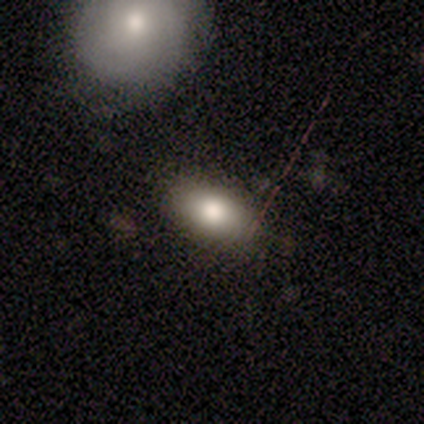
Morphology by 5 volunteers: smooth-or-featured: smooth: 60% | featured or disk: 40% | star or artifact: 0%
  how-rounded: in between: 100% | round: 0% | cigar-shaped: 0%
  merging: none: 80% | minor disturbance: 20% | major disturbance: 0% | merger: 0%